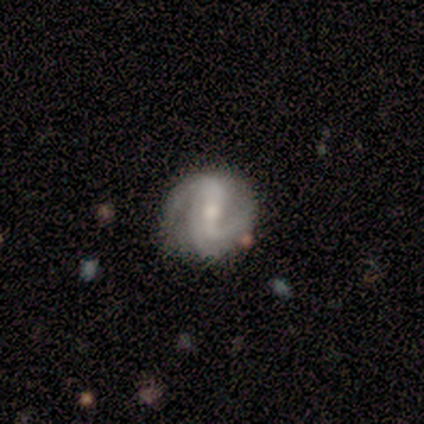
Smooth or featured?
  - featured or disk: 100% *
  - smooth: 0%
  - star or artifact: 0%
Edge-on disk?
  - no: 100% *
  - yes: 0%
Bar?
  - weak: 80% *
  - strong: 20%
  - no: 0%
Spiral arms?
  - yes: 100% *
  - no: 0%
Spiral winding?
  - tight: 60% *
  - medium: 40%
  - loose: 0%
Spiral arm count?
  - 3: 60% *
  - 2: 40%
  - 1: 0%
  - 4: 0%
  - more than 4: 0%
  - can't tell: 0%
Bulge size?
  - small: 60% *
  - moderate: 40%
  - dominant: 0%
  - large: 0%
  - none: 0%
Merging?
  - none: 100% *
  - minor disturbance: 0%
  - major disturbance: 0%
  - merger: 0%